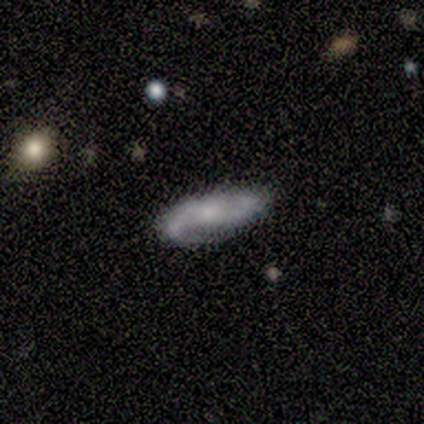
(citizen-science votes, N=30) This is clearly a featured or disk galaxy (80%). It is clearly not viewed edge-on (83%). Bar: likely no (70%). Spiral arm pattern: clearly yes (95%). Spiral arm count: clearly 2 (89%). Spiral winding: possibly loose (47%). Central bulge: likely small (65%). Merging: likely none (76%).